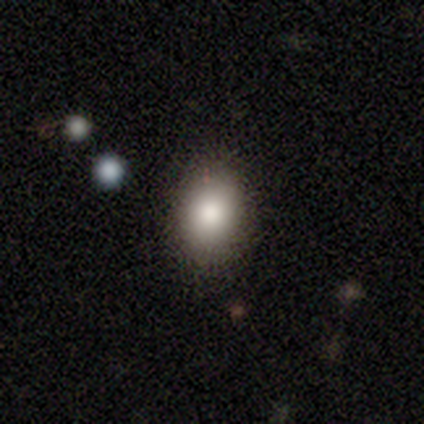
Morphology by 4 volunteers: Overall: smooth (75%). How rounded: in between (67%; round 33%). Merging: none (67%; minor disturbance 33%).